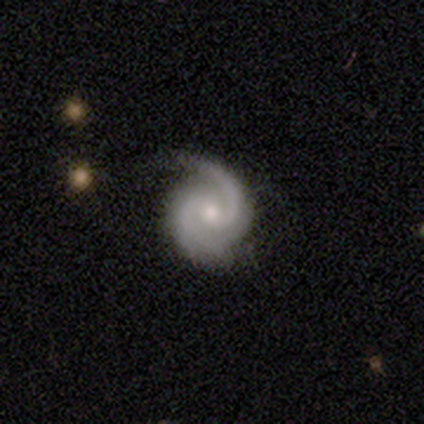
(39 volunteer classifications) A featured or disk galaxy (97%) with no bar (53%), 2 (79%) tight (53%) spiral arms (100%) and a moderate central bulge (50%).

Vote fractions:
- Smooth or featured? featured or disk: 97% / star or artifact: 3% / smooth: 0%
- Edge-on disk? no: 100% / yes: 0%
- Bar? no: 53% / weak: 39% / strong: 8%
- Spiral arms? yes: 100% / no: 0%
- Spiral winding? tight: 53% / medium: 42% / loose: 5%
- Spiral arm count? 2: 79% / 3: 11% / 1: 8% / more than 4: 3% / 4: 0% / can't tell: 0%
- Bulge size? moderate: 50% / small: 42% / large: 5% / none: 3% / dominant: 0%
- Merging? none: 74% / minor disturbance: 24% / major disturbance: 3% / merger: 0%